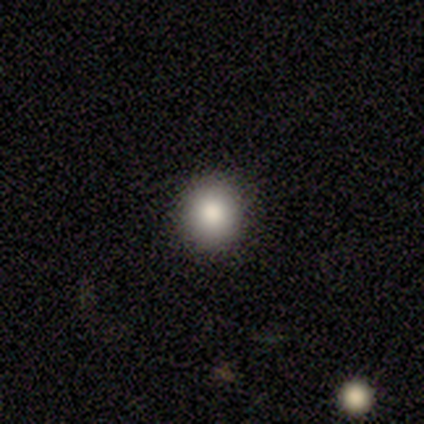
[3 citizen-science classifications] This is likely a smooth galaxy (67%). How rounded: clearly round (100%). Merging: clearly none (100%).